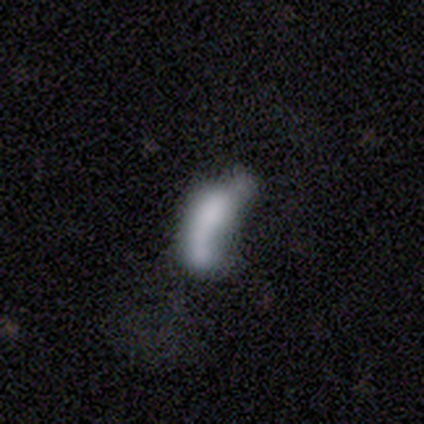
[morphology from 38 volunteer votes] Smooth or featured? smooth (50%)
How rounded? in between (53%)
Merging? merger (44%)